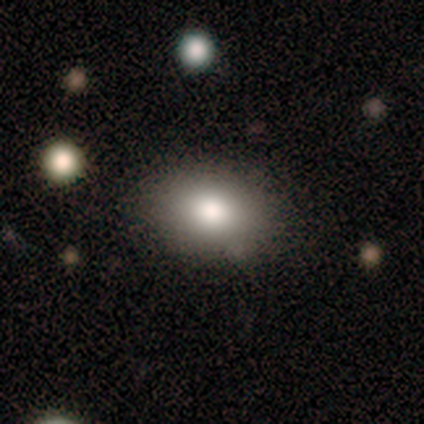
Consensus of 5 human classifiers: Volunteers were most divided on "smooth or featured": smooth: 60%, star or artifact: 40%, featured or disk: 0%. More confident: how rounded — in between (100%); merging — none (67%).